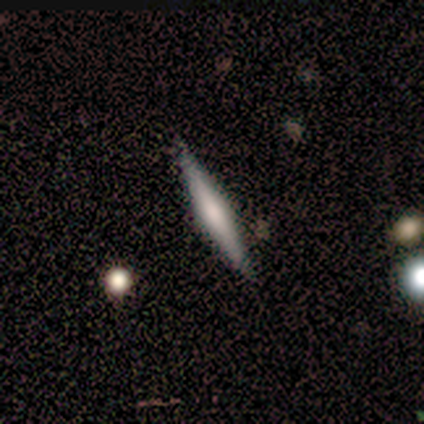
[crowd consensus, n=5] smooth-or-featured: smooth: 60% | featured or disk: 20% | star or artifact: 20%
  how-rounded: cigar-shaped: 100% | round: 0% | in between: 0%
  merging: none: 75% | minor disturbance: 25% | major disturbance: 0% | merger: 0%